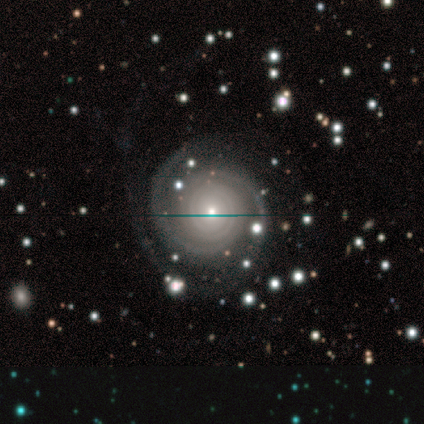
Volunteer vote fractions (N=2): smooth-or-featured: featured or disk: 100% | smooth: 0% | star or artifact: 0%
  disk-edge-on: no: 100% | yes: 0%
    bar: no: 100% | strong: 0% | weak: 0%
    has-spiral-arms: yes: 100% | no: 0%
      spiral-winding: tight: 100% | medium: 0% | loose: 0%
      spiral-arm-count: more than 4: 100% | 1: 0% | 2: 0% | 3: 0% | 4: 0% | can't tell: 0%
    bulge-size: moderate: 50% (tied) | small: 50% (tied) | dominant: 0% | large: 0% | none: 0%
  merging: none: 100% | minor disturbance: 0% | major disturbance: 0% | merger: 0%